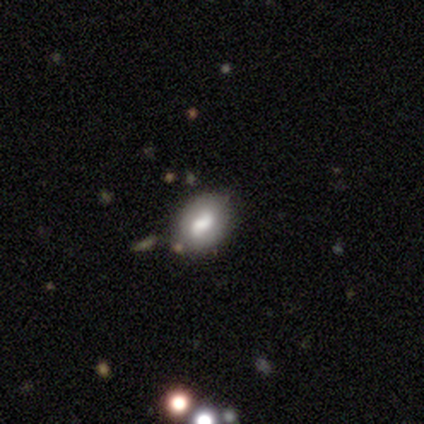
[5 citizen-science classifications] smooth_or_featured: smooth (p=0.40) [tied with: star or artifact p=0.40]
how_rounded: in between (p=1.00)
merging: none (p=0.67) [alt: minor disturbance p=0.33]